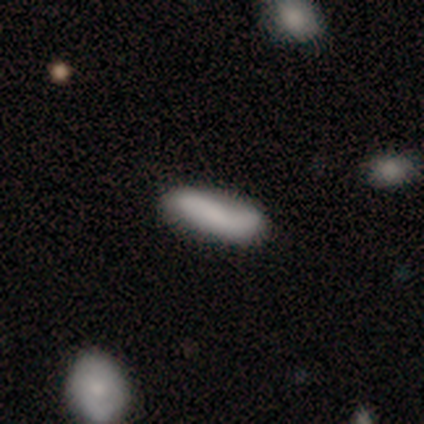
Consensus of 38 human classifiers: Volunteers were most divided on "how rounded": cigar-shaped: 57%, in between: 43%, round: 0%. More confident: merging — none (76%); smooth or featured — smooth (74%).